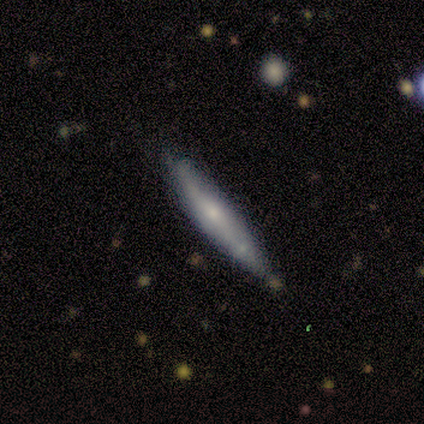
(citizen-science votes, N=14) Smooth or featured? 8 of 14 (57%) said smooth. How rounded? 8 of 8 (100%) said cigar-shaped. Merging? 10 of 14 (71%) said none.